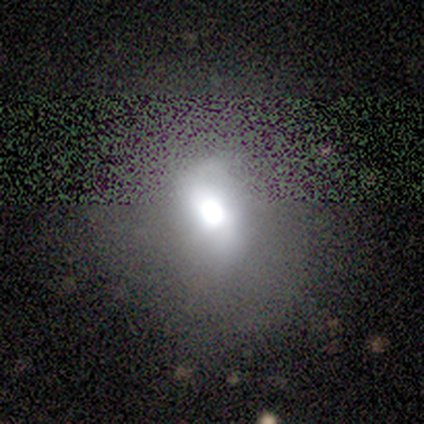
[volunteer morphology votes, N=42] smooth_or_featured: smooth (p=0.43) [alt: featured or disk p=0.33]
how_rounded: round (p=0.56) [alt: in between p=0.39]
merging: none (p=0.59) [alt: minor disturbance p=0.34]